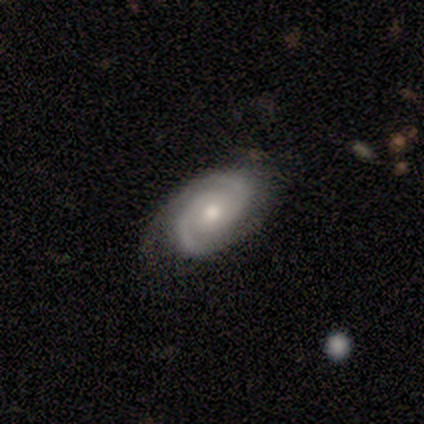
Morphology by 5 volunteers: Smooth or featured?
  - featured or disk: 80% *
  - smooth: 20%
  - star or artifact: 0%
Edge-on disk?
  - no: 100% *
  - yes: 0%
Bar?
  - no: 100% *
  - strong: 0%
  - weak: 0%
Spiral arms?
  - yes: 100% *
  - no: 0%
Spiral winding?
  - tight: 100% *
  - medium: 0%
  - loose: 0%
Spiral arm count?
  - 2: 100% *
  - 1: 0%
  - 3: 0%
  - 4: 0%
  - more than 4: 0%
  - can't tell: 0%
Bulge size?
  - moderate: 75% *
  - none: 25%
  - dominant: 0%
  - large: 0%
  - small: 0%
Merging?
  - none: 100% *
  - minor disturbance: 0%
  - major disturbance: 0%
  - merger: 0%